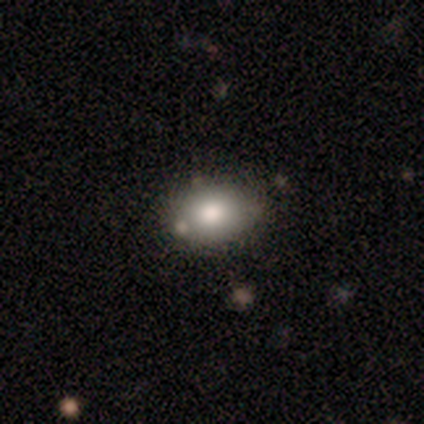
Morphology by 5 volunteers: This appears to be a smooth galaxy with no disk features (80%) that is round (50%, tied with in between). Merging: none (40%).